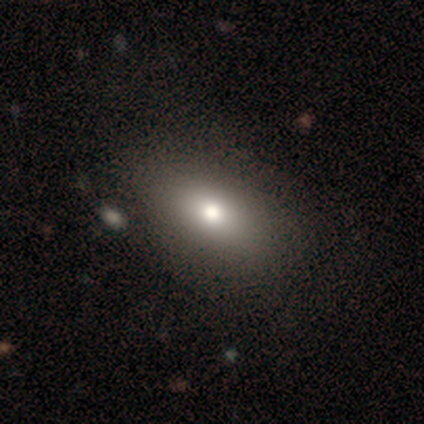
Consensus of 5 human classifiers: Volunteers were most divided on "smooth or featured": smooth: 60%, featured or disk: 40%, star or artifact: 0%. More confident: merging — none (80%); how rounded — in between (67%).